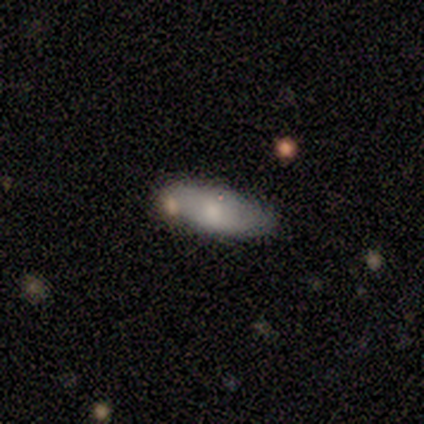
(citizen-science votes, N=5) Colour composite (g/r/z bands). It shows a smooth galaxy with no disk features (60%) that is in between round and cigar-shaped (100%). Merging: none (60%).